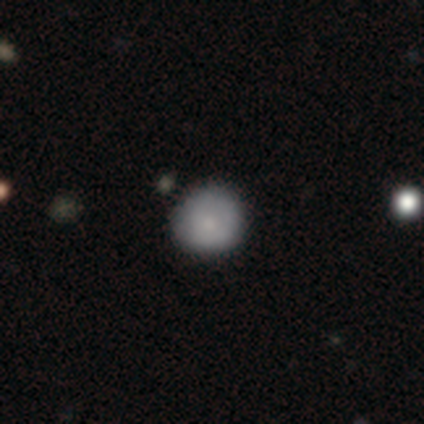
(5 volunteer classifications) Overall: smooth (100%). How rounded: round (80%). Merging: none (100%).